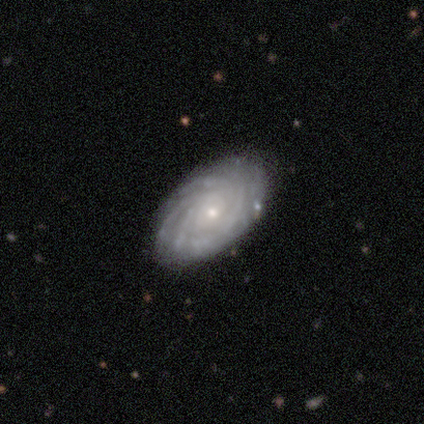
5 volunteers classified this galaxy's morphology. type=featured or disk (100%); edge-on=no (100%); bar=no (100%); spiral arms=yes (100%); winding=tight (80%); arm count=4 (40%, tied with can't tell); bulge=moderate (60%); merging=none (100%).